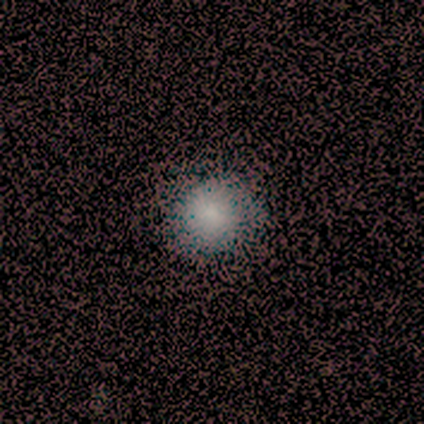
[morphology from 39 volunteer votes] Smooth or featured?
  - smooth: 79% *
  - featured or disk: 10%
  - star or artifact: 10%
How rounded?
  - round: 87% *
  - in between: 13%
  - cigar-shaped: 0%
Merging?
  - none: 60% *
  - major disturbance: 3%
  - minor disturbance: 0%
  - merger: 0%